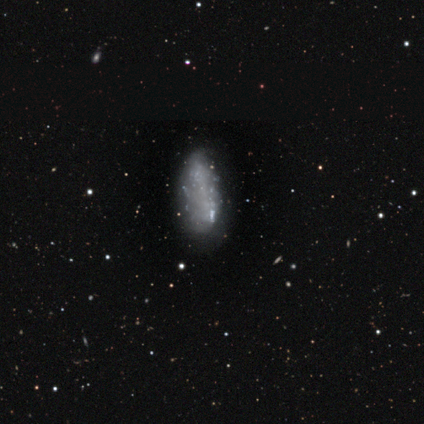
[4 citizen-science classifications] Morphology: type=featured or disk (75%); edge-on=no (100%); bar=no (100%); spiral arms=no (100%); bulge=none (100%); merging=none (50%, tied with minor disturbance).